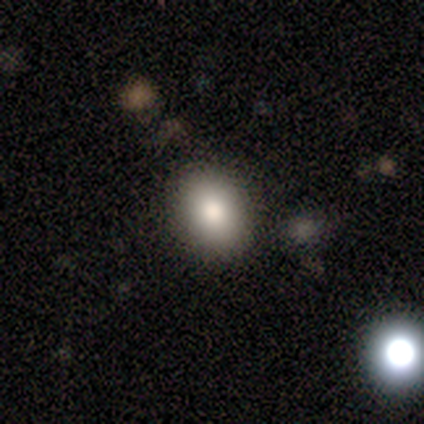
This is likely a smooth galaxy (60%). How rounded: likely round (67%). Merging: clearly none (100%).